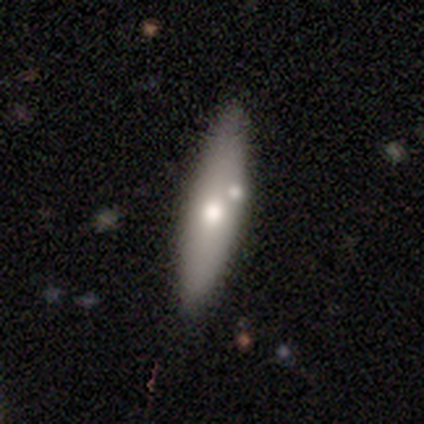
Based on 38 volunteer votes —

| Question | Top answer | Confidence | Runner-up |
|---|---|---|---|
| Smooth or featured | smooth | 61% | featured or disk (37%) |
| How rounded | cigar-shaped | 61% | in between (39%) |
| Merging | none | 65% | merger (27%) |